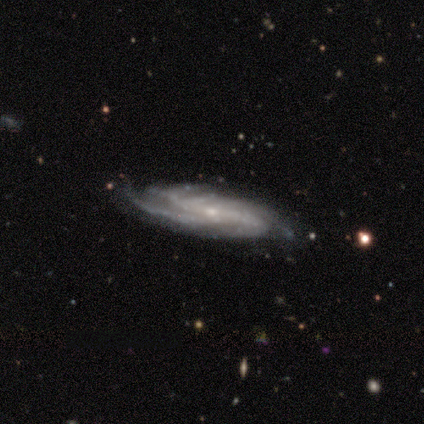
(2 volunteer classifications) A featured or disk galaxy (100%) with a strong bar (100%), 3 (50%, tied with 4) medium (50%, tied with loose) spiral arms (100%) and a small central bulge (100%). Merging: none (100%).